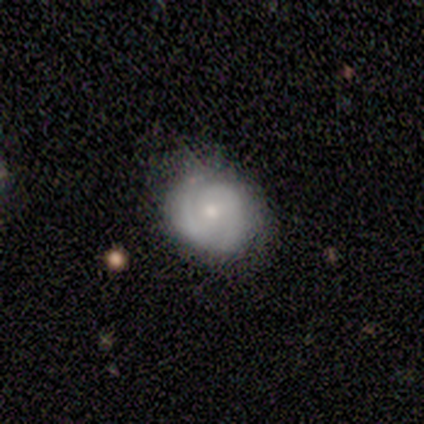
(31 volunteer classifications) Smooth or featured: featured or disk — 55% (smooth — 29%)
Edge-on disk: no — 100%
Bar: no — 71% (weak — 24%)
Spiral arms: yes — 88% (no — 12%)
Spiral winding: medium — 53% (tight — 40%)
Spiral arm count: 2 — 67% (can't tell — 20%)
Bulge size: small — 59% (moderate — 41%)
Merging: none — 92% (major disturbance — 8%)